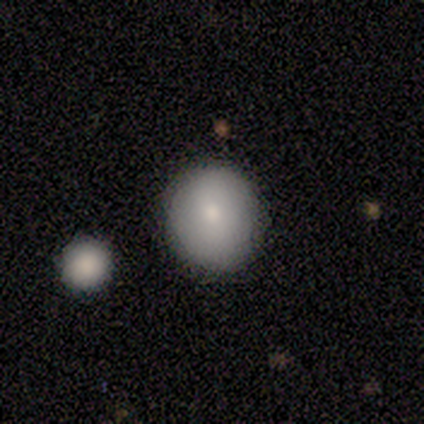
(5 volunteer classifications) smooth-or-featured: smooth: 100% | featured or disk: 0% | star or artifact: 0%
  how-rounded: round: 100% | in between: 0% | cigar-shaped: 0%
  merging: none: 100% | minor disturbance: 0% | major disturbance: 0% | merger: 0%